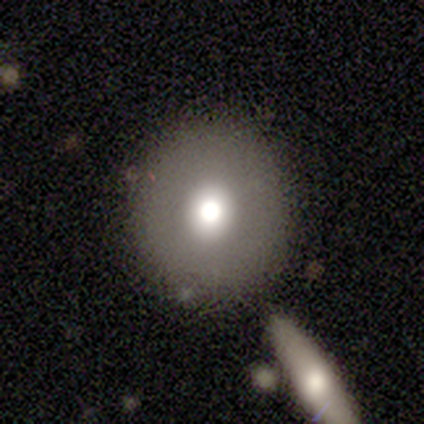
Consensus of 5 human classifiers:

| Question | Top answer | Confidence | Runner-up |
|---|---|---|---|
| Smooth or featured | smooth | 80% | featured or disk (20%) |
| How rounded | round | 100% | — |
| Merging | none | 80% | minor disturbance (20%) |